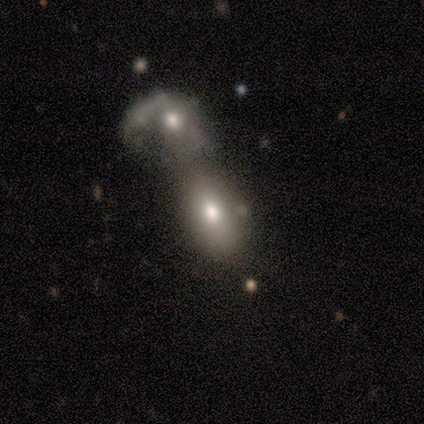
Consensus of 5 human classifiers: A featured or disk galaxy (60%) with no bar (100%), no spiral arms (100%) and a moderate central bulge (67%).

Vote fractions:
- Smooth or featured? featured or disk: 60% / smooth: 40% / star or artifact: 0%
- Edge-on disk? no: 100% / yes: 0%
- Bar? no: 100% / strong: 0% / weak: 0%
- Spiral arms? no: 100% / yes: 0%
- Bulge size? moderate: 67% / dominant: 33% / large: 0% / small: 0% / none: 0%
- Merging? merger: 100% / none: 0% / minor disturbance: 0% / major disturbance: 0%